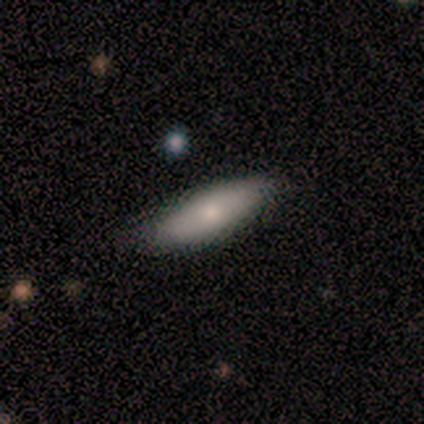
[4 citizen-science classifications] smooth-or-featured: smooth: 75% | featured or disk: 25% | star or artifact: 0%
  how-rounded: in between: 67% | cigar-shaped: 33% | round: 0%
  merging: none: 75% | minor disturbance: 25% | major disturbance: 0% | merger: 0%